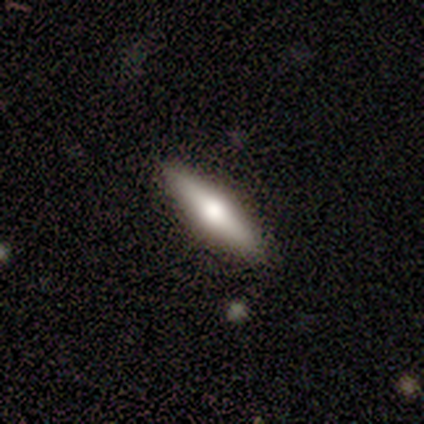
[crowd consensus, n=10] smooth-or-featured: smooth: 50% (tied) | featured or disk: 50% (tied) | star or artifact: 0%
  how-rounded: cigar-shaped: 100% | round: 0% | in between: 0%
  merging: none: 100% | minor disturbance: 0% | major disturbance: 0% | merger: 0%